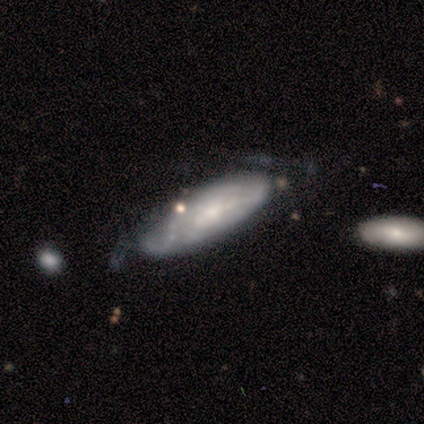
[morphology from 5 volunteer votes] This appears to be a smooth galaxy with no disk features (60%) that is cigar-shaped (100%). Merging: none (80%).